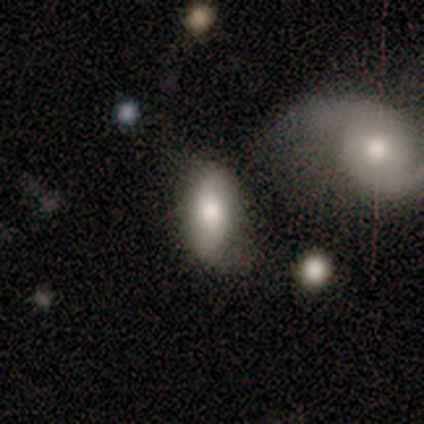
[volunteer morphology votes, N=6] smooth 83%, featured or disk 17%, star or artifact 0%. Down the decision tree: how rounded — in between (100%); merging — none (83%).